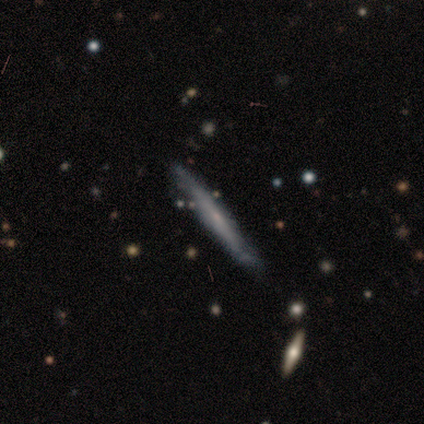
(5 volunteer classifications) smooth 80%, featured or disk 20%, star or artifact 0%. Down the decision tree: how rounded — cigar-shaped (100%); merging — none (60%).